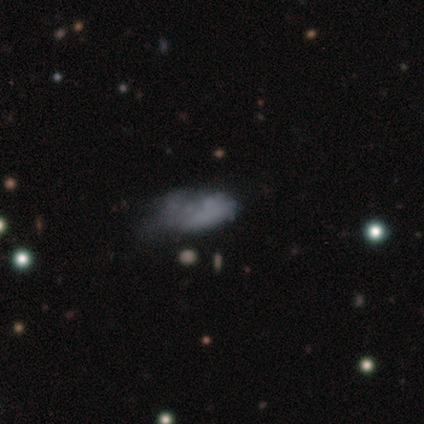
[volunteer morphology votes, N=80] smooth-or-featured: smooth: 51% | featured or disk: 41% | star or artifact: 8%
  how-rounded: in between: 88% | cigar-shaped: 7% | round: 5%
  merging: none: 16% | minor disturbance: 15% | major disturbance: 15% | merger: 4%